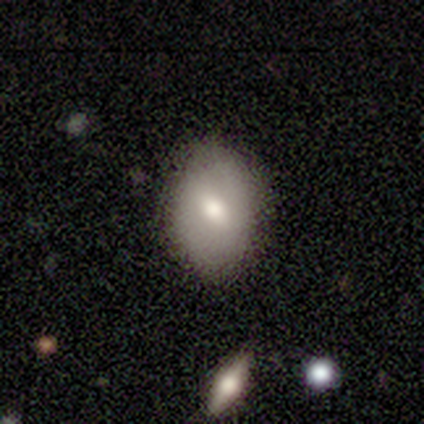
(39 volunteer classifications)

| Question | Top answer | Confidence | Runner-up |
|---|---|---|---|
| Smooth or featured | smooth | 67% | featured or disk (31%) |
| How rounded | in between | 81% | round (19%) |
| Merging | none | 61% | minor disturbance (11%) |